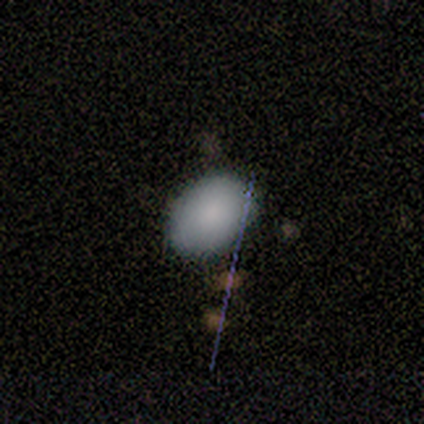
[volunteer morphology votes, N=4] Overall: smooth (50%, tied with star or artifact). How rounded: in between (100%). Merging: none (100%).